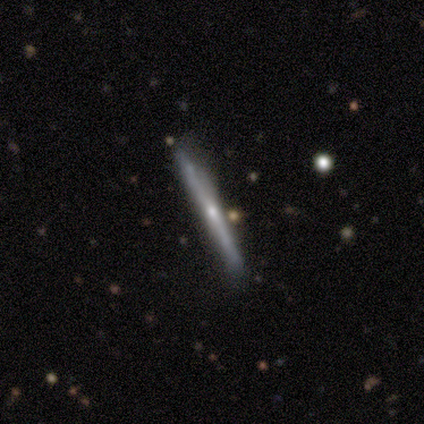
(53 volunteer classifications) smooth-or-featured: featured or disk: 75% | smooth: 19% | star or artifact: 6%
  disk-edge-on: yes: 100% | no: 0%
    edge-on-bulge: rounded: 68% | none: 30% | boxy: 2%
  merging: none: 62% | minor disturbance: 30% | merger: 6% | major disturbance: 2%